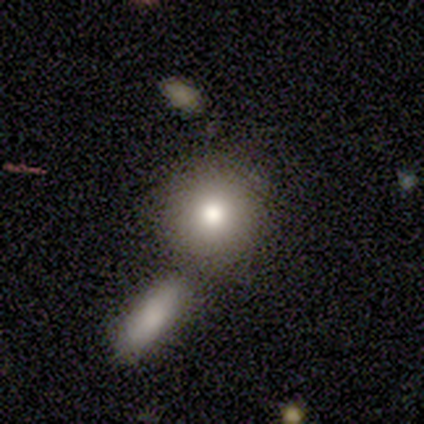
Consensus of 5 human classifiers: Smooth or featured? featured or disk (60%)
Edge-on disk? no (100%)
Bar? no (100%)
Spiral arms? no (100%)
Bulge size? moderate (67%)
Merging? none (40%, tied with merger)